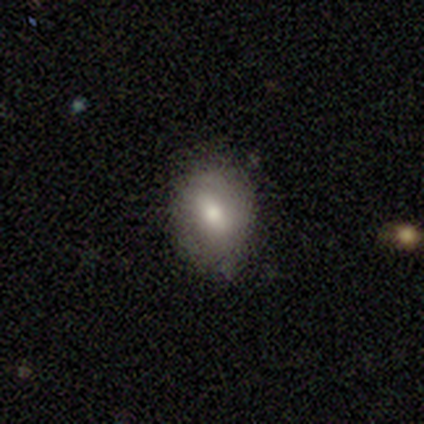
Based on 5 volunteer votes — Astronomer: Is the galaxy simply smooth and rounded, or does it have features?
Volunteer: smooth — 100%.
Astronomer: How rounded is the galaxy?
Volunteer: in between — 60% (runner-up: round, 40%).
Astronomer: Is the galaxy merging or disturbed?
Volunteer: none — 100%.